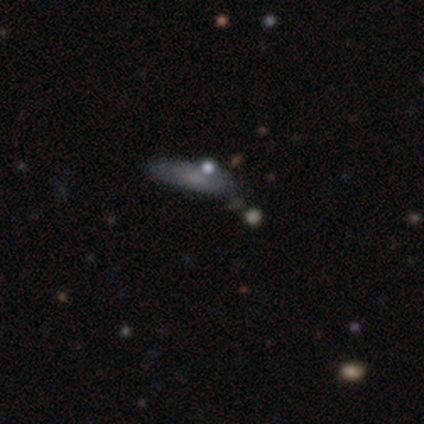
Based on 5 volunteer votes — A smooth galaxy with no disk features (40%, tied with featured or disk) that is in between round and cigar-shaped (50%, tied with cigar-shaped).

Vote fractions:
- Smooth or featured? smooth: 40% (tied) / featured or disk: 40% (tied) / star or artifact: 20%
- How rounded? in between: 50% (tied) / cigar-shaped: 50% (tied) / round: 0%
- Merging? none: 25% (tied) / minor disturbance: 25% (tied) / major disturbance: 25% (tied) / merger: 25% (tied)